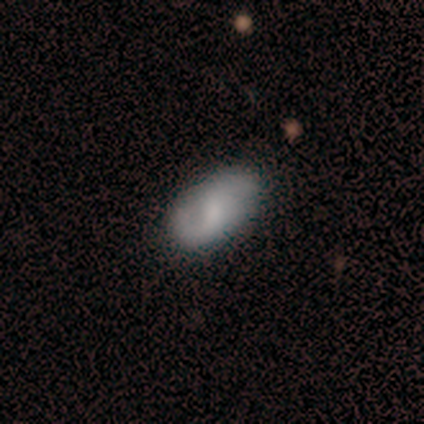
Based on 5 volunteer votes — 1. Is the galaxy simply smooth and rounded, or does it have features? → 60% smooth, 20% featured or disk, 20% star or artifact.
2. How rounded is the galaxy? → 100% in between, 0% round, 0% cigar-shaped.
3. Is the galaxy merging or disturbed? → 50% none (tied), 50% minor disturbance (tied), 0% major disturbance, 0% merger.